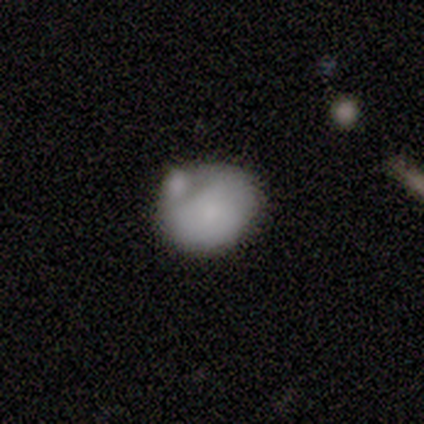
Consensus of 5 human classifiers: This is clearly a smooth galaxy (80%). How rounded: likely in between (75%). Merging: likely merger (60%).